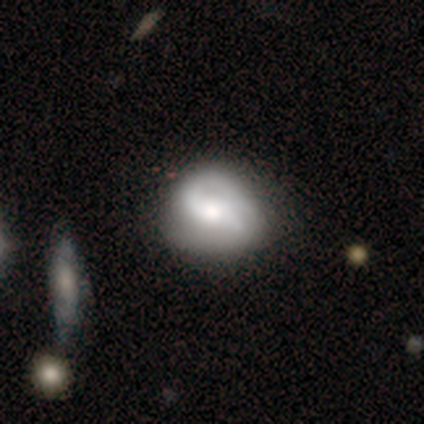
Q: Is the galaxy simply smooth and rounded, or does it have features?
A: featured or disk — 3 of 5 (60%).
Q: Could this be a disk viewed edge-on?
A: no — 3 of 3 (100%).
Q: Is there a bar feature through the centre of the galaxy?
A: no — 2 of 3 (67%).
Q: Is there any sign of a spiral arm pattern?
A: yes — 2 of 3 (67%).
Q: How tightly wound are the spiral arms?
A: tight — 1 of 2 (50%, tied with medium).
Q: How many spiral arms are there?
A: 1 — 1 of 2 (50%, tied with can't tell).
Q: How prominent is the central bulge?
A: moderate — 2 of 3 (67%).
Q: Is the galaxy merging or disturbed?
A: none — 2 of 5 (40%, tied with major disturbance).